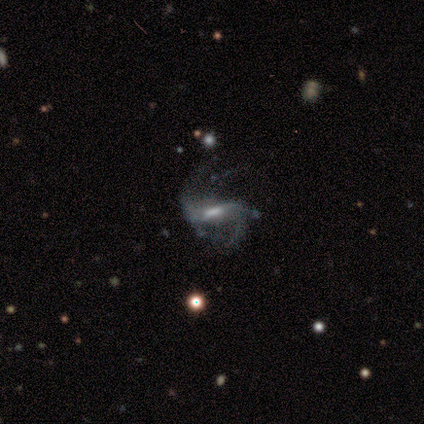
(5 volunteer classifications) Volunteers were most divided on "bar" (2-way tie): strong: 50%, weak: 50%, no: 0%. More confident: smooth or featured — featured or disk (100%); spiral arms — yes (100%); spiral winding — loose (100%); spiral arm count — 2 (100%); edge-on disk — no (80%); bulge size — moderate (75%); merging — major disturbance (60%).